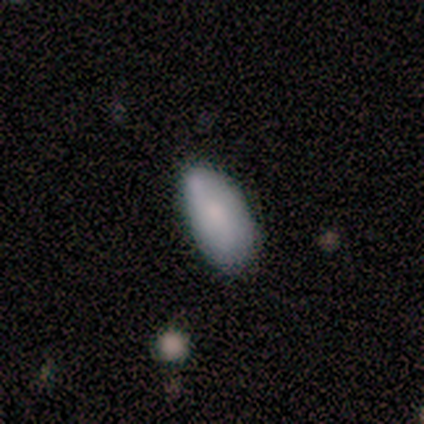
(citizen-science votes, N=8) Smooth or featured?
  - smooth: 62% *
  - featured or disk: 25%
  - star or artifact: 12%
How rounded?
  - in between: 100% *
  - round: 0%
  - cigar-shaped: 0%
Merging?
  - none: 57% *
  - minor disturbance: 43%
  - major disturbance: 0%
  - merger: 0%